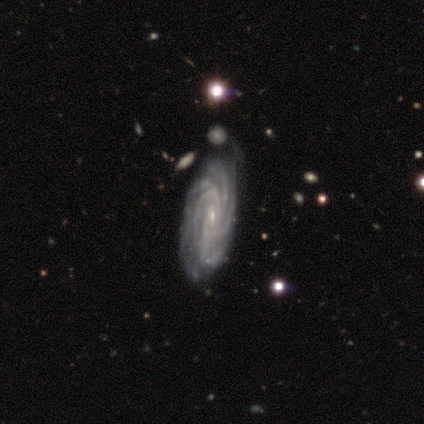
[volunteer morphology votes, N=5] A featured or disk galaxy (100%) with a weak bar (60%), tight (80%) spiral arms (100%) and a small central bulge (60%). Merging: none (80%).